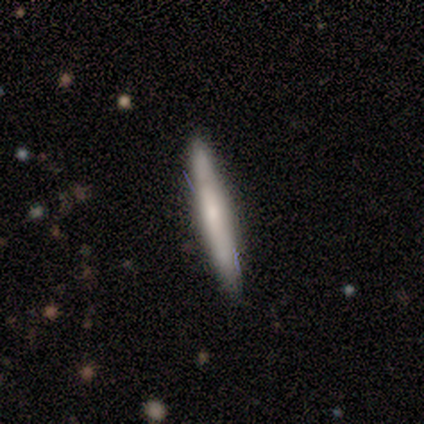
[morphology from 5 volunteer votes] smooth-or-featured: featured or disk: 80% | smooth: 20% | star or artifact: 0%
  disk-edge-on: yes: 75% | no: 25%
    edge-on-bulge: none: 67% | rounded: 33% | boxy: 0%
  merging: none: 100% | minor disturbance: 0% | major disturbance: 0% | merger: 0%